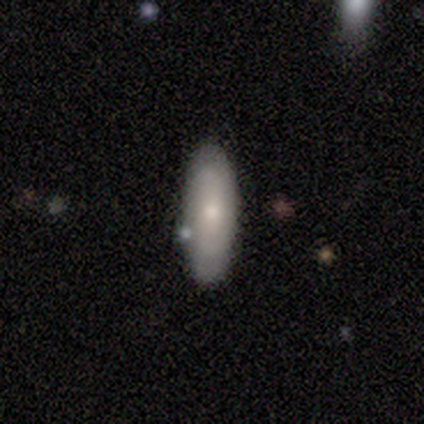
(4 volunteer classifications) smooth-or-featured: smooth: 75% | featured or disk: 25% | star or artifact: 0%
  how-rounded: in between: 67% | cigar-shaped: 33% | round: 0%
  merging: none: 100% | minor disturbance: 0% | major disturbance: 0% | merger: 0%